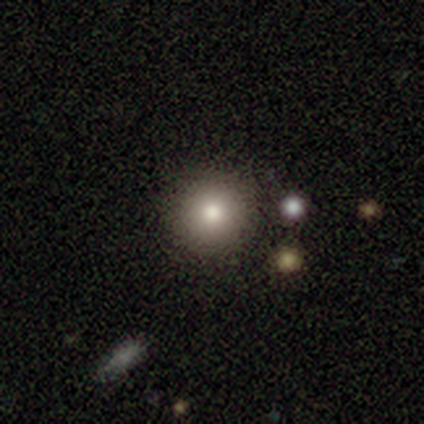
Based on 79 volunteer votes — Overall: smooth (84%). How rounded: round (97%). Merging: none (61%).